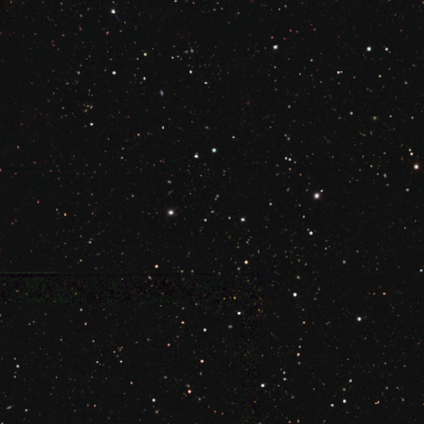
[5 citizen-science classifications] Q: Smooth or featured?
A: star or artifact (100%)